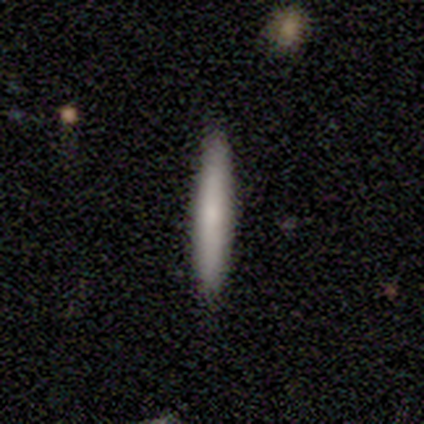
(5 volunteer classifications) smooth-or-featured: smooth: 100% | featured or disk: 0% | star or artifact: 0%
  how-rounded: cigar-shaped: 100% | round: 0% | in between: 0%
  merging: none: 100% | minor disturbance: 0% | major disturbance: 0% | merger: 0%